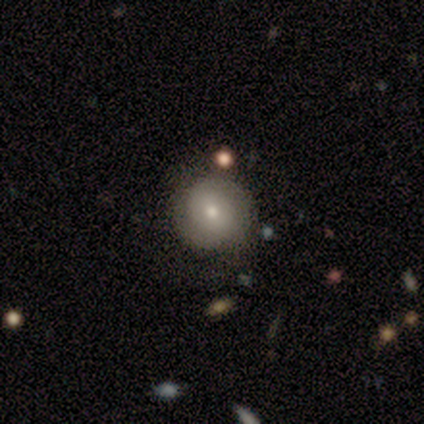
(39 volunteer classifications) smooth_or_featured: smooth (p=0.59) [alt: featured or disk p=0.36]
how_rounded: round (p=0.91) [alt: in between p=0.09]
merging: none (p=0.73) [alt: minor disturbance p=0.16]